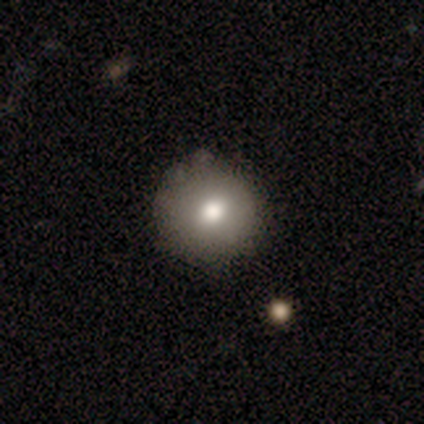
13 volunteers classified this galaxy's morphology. Smooth or featured? 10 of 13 (77%) said smooth. How rounded? 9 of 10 (90%) said round. Merging? 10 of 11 (91%) said none.